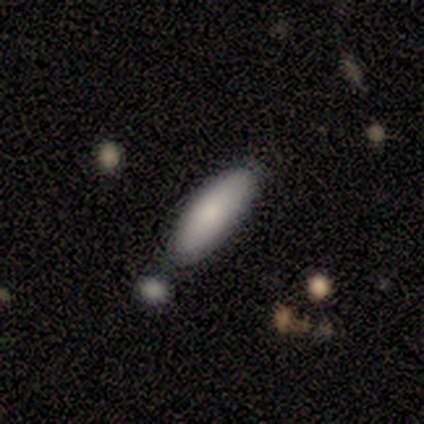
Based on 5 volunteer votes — Volunteers were most divided on "how rounded": cigar-shaped: 60%, in between: 40%, round: 0%. More confident: smooth or featured — smooth (100%); merging — none (60%).